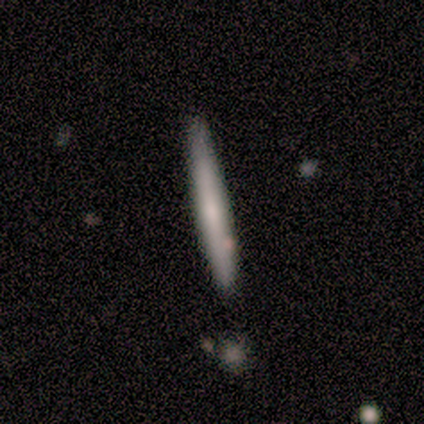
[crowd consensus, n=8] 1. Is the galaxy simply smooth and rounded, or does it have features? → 50% smooth (tied), 50% featured or disk (tied), 0% star or artifact.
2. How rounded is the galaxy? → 100% cigar-shaped, 0% round, 0% in between.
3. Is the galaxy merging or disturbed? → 88% none, 12% major disturbance, 0% minor disturbance, 0% merger.